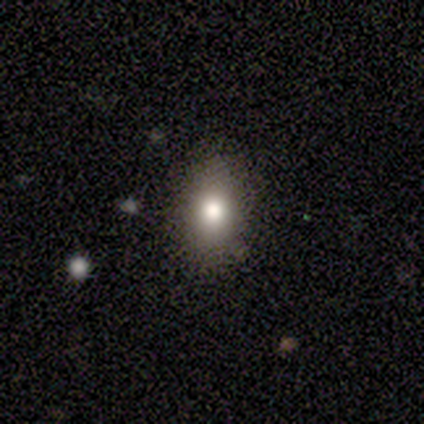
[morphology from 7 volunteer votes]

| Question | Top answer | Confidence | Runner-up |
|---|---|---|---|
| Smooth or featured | smooth | 86% | featured or disk (14%) |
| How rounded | in between | 83% | round (17%) |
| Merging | none | 71% | minor disturbance (29%) |